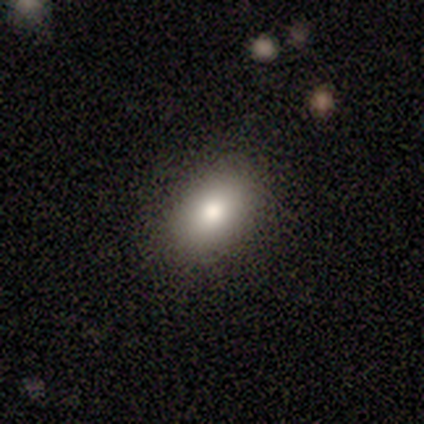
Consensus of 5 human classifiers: A smooth galaxy with no disk features (80%) that is in between round and cigar-shaped (100%).

Vote fractions:
- Smooth or featured? smooth: 80% / star or artifact: 20% / featured or disk: 0%
- How rounded? in between: 100% / round: 0% / cigar-shaped: 0%
- Merging? none: 100% / minor disturbance: 0% / major disturbance: 0% / merger: 0%